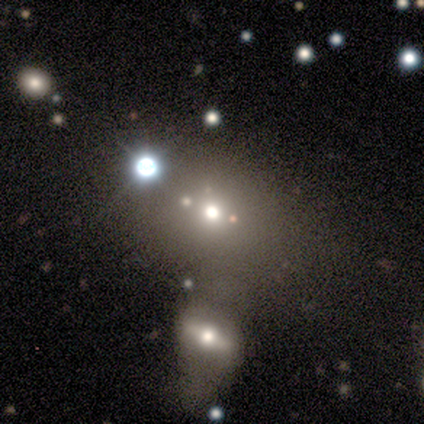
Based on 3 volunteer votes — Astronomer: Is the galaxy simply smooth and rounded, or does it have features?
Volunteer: smooth — 67%.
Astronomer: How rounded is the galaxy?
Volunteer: round — 100%.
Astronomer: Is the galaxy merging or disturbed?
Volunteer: none — 50%, tied with minor disturbance at 50%.